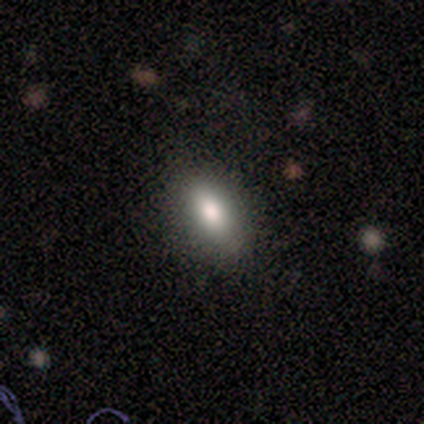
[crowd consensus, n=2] Morphology: type=smooth (100%); roundness=in between (100%); merging=none (50%, tied with merger).